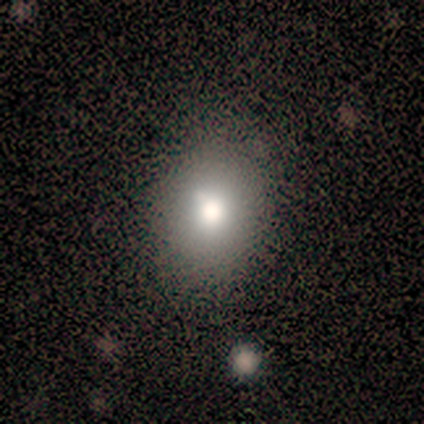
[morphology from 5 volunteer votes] Smooth or featured: smooth — 60% (featured or disk — 40%)
How rounded: round — 67% (in between — 33%)
Merging: none — 80% (merger — 20%)